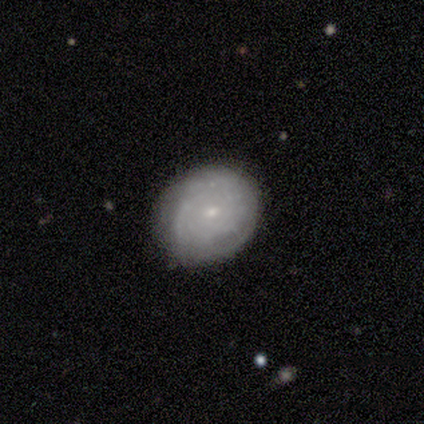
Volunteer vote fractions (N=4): Smooth or featured?
  - smooth: 50% * (tied)
  - featured or disk: 50% * (tied)
  - star or artifact: 0%
How rounded?
  - round: 50% * (tied)
  - in between: 50% * (tied)
  - cigar-shaped: 0%
Merging?
  - minor disturbance: 75% *
  - none: 25%
  - major disturbance: 0%
  - merger: 0%